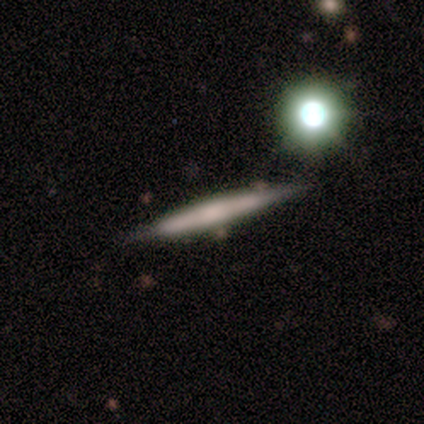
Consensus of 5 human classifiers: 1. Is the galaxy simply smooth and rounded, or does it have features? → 60% featured or disk, 40% smooth, 0% star or artifact.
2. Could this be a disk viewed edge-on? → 100% yes, 0% no.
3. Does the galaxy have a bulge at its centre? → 67% rounded, 33% none, 0% boxy.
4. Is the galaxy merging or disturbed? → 100% none, 0% minor disturbance, 0% major disturbance, 0% merger.